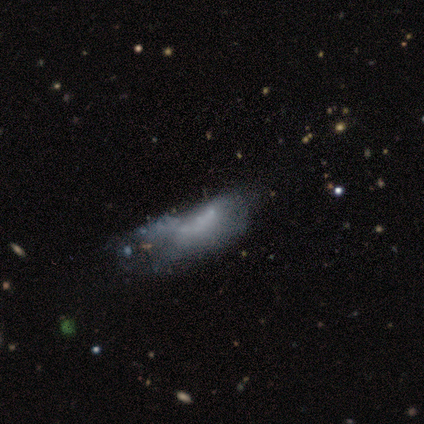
Smooth or featured? smooth (60%)
How rounded? in between (67%)
Merging? minor disturbance (50%)